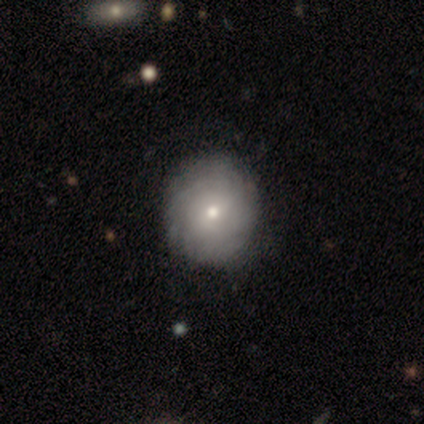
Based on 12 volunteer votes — Smooth or featured?
  - featured or disk: 67% *
  - smooth: 25%
  - star or artifact: 8%
Edge-on disk?
  - no: 100% *
  - yes: 0%
Bar?
  - no: 100% *
  - strong: 0%
  - weak: 0%
Spiral arms?
  - yes: 62% *
  - no: 38%
Spiral winding?
  - tight: 100% *
  - medium: 0%
  - loose: 0%
Spiral arm count?
  - 3: 40% *
  - 4: 20%
  - more than 4: 20%
  - can't tell: 20%
  - 1: 0%
  - 2: 0%
Bulge size?
  - moderate: 50% * (tied)
  - small: 50% * (tied)
  - dominant: 0%
  - large: 0%
  - none: 0%
Merging?
  - none: 100% *
  - minor disturbance: 0%
  - major disturbance: 0%
  - merger: 0%